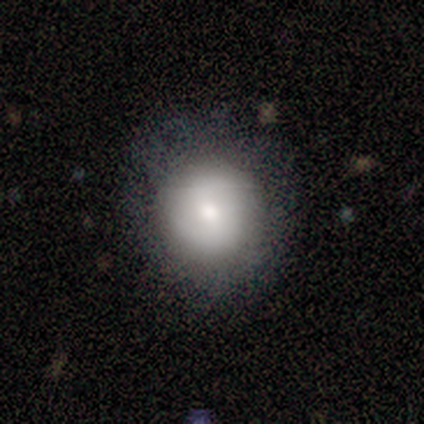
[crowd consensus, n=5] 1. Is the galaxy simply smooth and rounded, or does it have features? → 40% smooth (tied), 40% featured or disk (tied), 20% star or artifact.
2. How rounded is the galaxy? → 100% round, 0% in between, 0% cigar-shaped.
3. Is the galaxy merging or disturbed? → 75% none, 25% minor disturbance, 0% major disturbance, 0% merger.